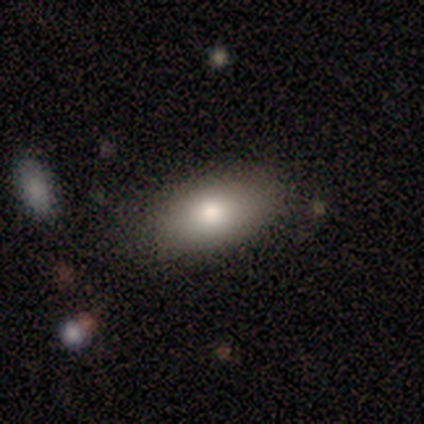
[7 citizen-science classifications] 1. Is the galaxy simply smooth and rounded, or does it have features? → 100% smooth, 0% featured or disk, 0% star or artifact.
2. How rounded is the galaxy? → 100% in between, 0% round, 0% cigar-shaped.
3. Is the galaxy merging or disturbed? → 71% none, 29% minor disturbance, 0% major disturbance, 0% merger.